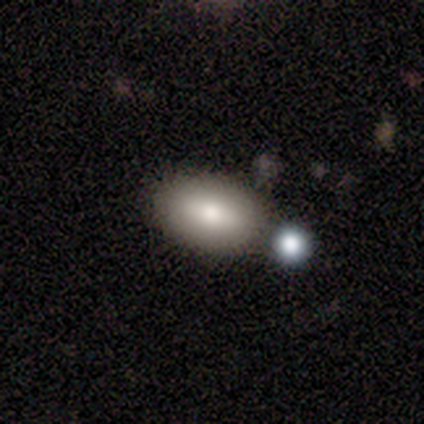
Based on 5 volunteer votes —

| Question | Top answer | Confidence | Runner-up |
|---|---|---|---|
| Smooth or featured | smooth | 100% | — |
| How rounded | in between | 100% | — |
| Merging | none | 100% | — |